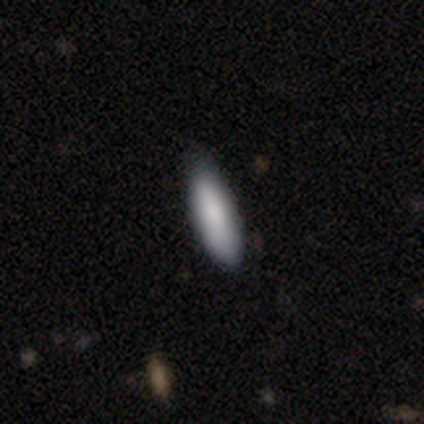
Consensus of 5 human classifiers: Smooth or featured?
  - smooth: 100% *
  - featured or disk: 0%
  - star or artifact: 0%
How rounded?
  - cigar-shaped: 60% *
  - in between: 40%
  - round: 0%
Merging?
  - none: 60% *
  - minor disturbance: 40%
  - major disturbance: 0%
  - merger: 0%